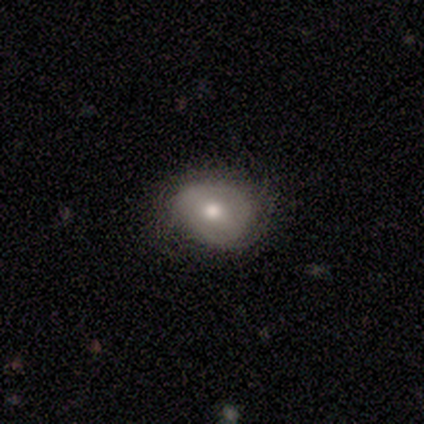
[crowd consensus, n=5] This appears to be a smooth galaxy with no disk features (60%) that is in between round and cigar-shaped (100%). Merging: minor disturbance (80%).